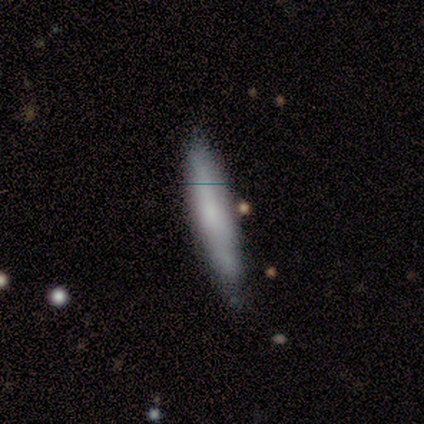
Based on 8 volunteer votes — smooth-or-featured: smooth: 50% (tied) | featured or disk: 50% (tied) | star or artifact: 0%
  how-rounded: cigar-shaped: 75% | in between: 25% | round: 0%
  merging: minor disturbance: 62% | none: 38% | major disturbance: 0% | merger: 0%